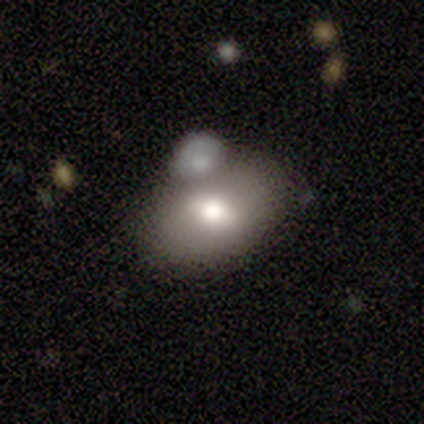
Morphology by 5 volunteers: smooth_or_featured: smooth (p=0.80) [alt: featured or disk p=0.20]
how_rounded: in between (p=0.75) [alt: round p=0.25]
merging: none (p=0.60) [alt: merger p=0.40]